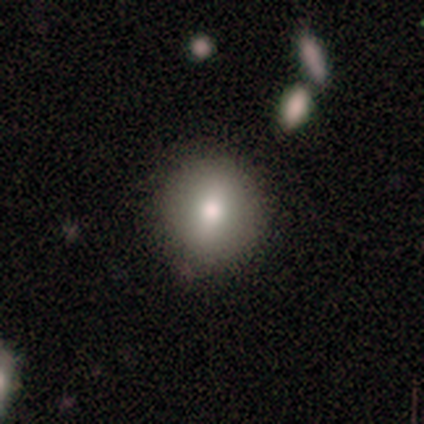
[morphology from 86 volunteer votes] type=smooth (76%); roundness=round (88%); merging=none (80%).